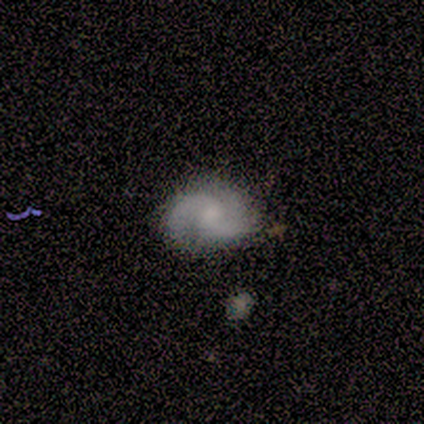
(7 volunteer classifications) smooth-or-featured: featured or disk: 71% | smooth: 14% | star or artifact: 14%
  disk-edge-on: no: 100% | yes: 0%
    bar: no: 80% | weak: 20% | strong: 0%
    has-spiral-arms: yes: 100% | no: 0%
      spiral-winding: medium: 60% | tight: 20% | loose: 20%
      spiral-arm-count: 2: 100% | 1: 0% | 3: 0% | 4: 0% | more than 4: 0% | can't tell: 0%
    bulge-size: moderate: 40% (tied) | small: 40% (tied) | none: 20% | dominant: 0% | large: 0%
  merging: none: 50% (tied) | minor disturbance: 50% (tied) | major disturbance: 0% | merger: 0%